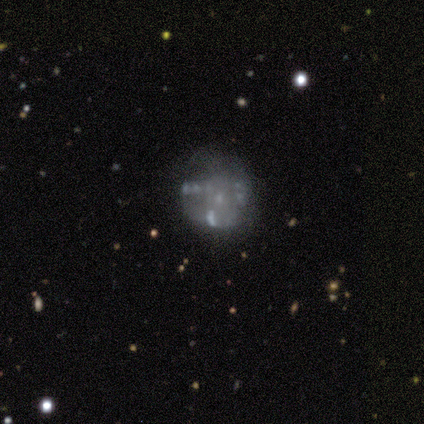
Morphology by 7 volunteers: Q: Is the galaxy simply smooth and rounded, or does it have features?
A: featured or disk — 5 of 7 (71%).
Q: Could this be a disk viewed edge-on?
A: no — 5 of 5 (100%).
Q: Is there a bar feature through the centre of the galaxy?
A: no — 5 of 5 (100%).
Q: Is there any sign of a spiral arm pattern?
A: no — 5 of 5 (100%).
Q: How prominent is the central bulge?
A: none — 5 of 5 (100%).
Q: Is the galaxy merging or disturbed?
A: none — 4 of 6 (67%).